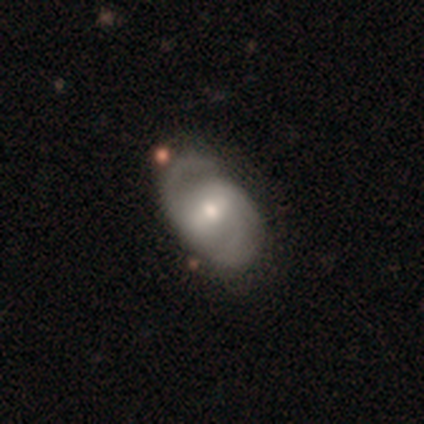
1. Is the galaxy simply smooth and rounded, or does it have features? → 81% featured or disk, 17% smooth, 2% star or artifact.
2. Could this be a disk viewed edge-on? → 100% no, 0% yes.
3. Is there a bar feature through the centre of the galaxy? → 55% weak, 32% strong, 13% no.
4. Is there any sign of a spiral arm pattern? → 94% yes, 6% no.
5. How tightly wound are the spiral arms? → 59% medium, 30% tight, 11% loose.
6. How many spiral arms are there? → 84% 2, 14% 3, 2% 1, 0% 4, 0% more than 4, 0% can't tell.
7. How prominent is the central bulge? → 57% moderate, 34% small, 6% large, 2% none, 0% dominant.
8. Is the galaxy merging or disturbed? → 74% none, 19% minor disturbance, 4% major disturbance, 4% merger.